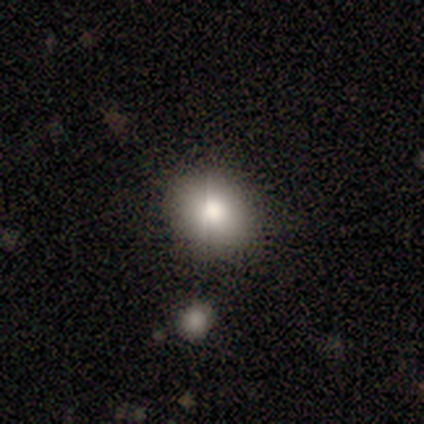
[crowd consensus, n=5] A smooth galaxy with no disk features (60%) that is round (67%). Merging: none (100%).